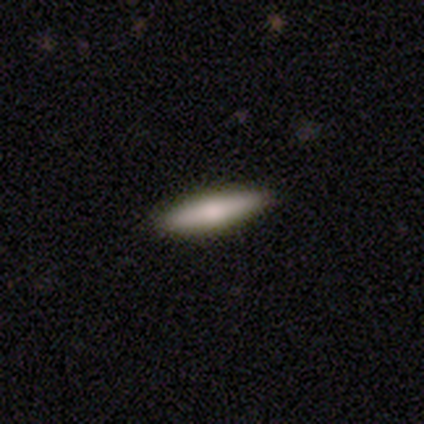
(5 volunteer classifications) Volunteers were most divided on "how rounded": cigar-shaped: 60%, in between: 40%, round: 0%. More confident: smooth or featured — smooth (100%); merging — none (100%).